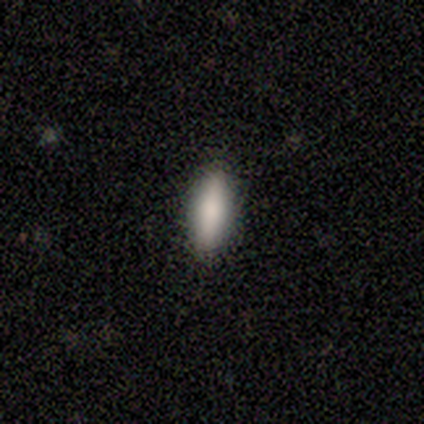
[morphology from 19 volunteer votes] This is likely a smooth galaxy (74%). How rounded: possibly cigar-shaped (57%). Merging: clearly none (100%).